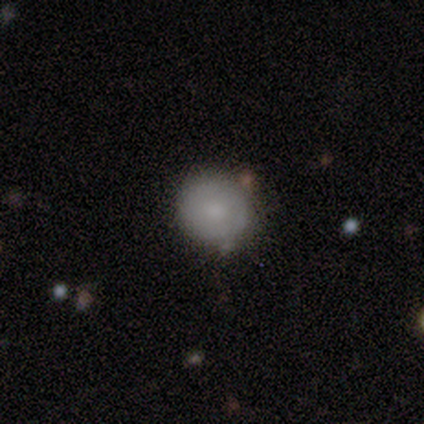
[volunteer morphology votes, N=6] A smooth galaxy with no disk features (50%, tied with featured or disk) that is round (100%).

Vote fractions:
- Smooth or featured? smooth: 50% (tied) / featured or disk: 50% (tied) / star or artifact: 0%
- How rounded? round: 100% / in between: 0% / cigar-shaped: 0%
- Merging? none: 50% (tied) / minor disturbance: 50% (tied) / major disturbance: 0% / merger: 0%